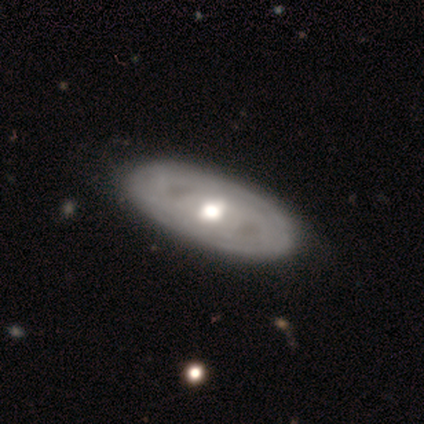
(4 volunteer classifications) Q: Smooth or featured?
A: featured or disk (75%); runner-up: star or artifact (25%)
Q: Edge-on disk?
A: no (100%)
Q: Bar?
A: no (100%)
Q: Spiral arms?
A: yes (100%)
Q: Spiral winding?
A: tight (100%)
Q: Spiral arm count?
A: can't tell (100%)
Q: Bulge size?
A: moderate (67%); runner-up: large (33%)
Q: Merging?
A: minor disturbance (67%); runner-up: none (33%)